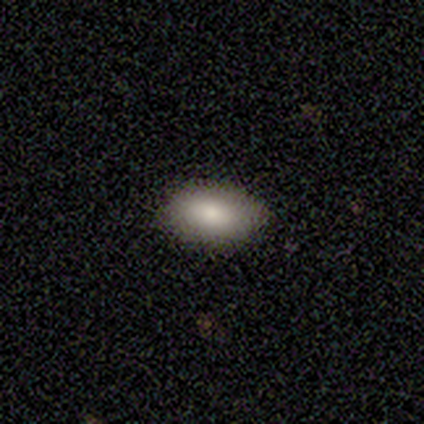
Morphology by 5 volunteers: Overall: smooth (100%). How rounded: in between (100%). Merging: none (80%).